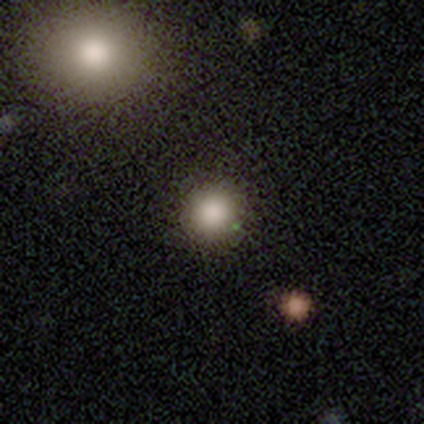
Smooth or featured: smooth — 67% (star or artifact — 20%)
How rounded: round — 90% (in between — 10%)
Merging: none — 92% (minor disturbance — 8%)